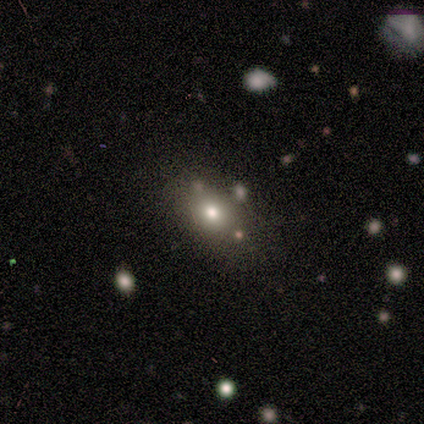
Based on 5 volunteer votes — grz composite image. It shows a smooth galaxy with no disk features (60%) that is round (67%). Merging: none (67%).